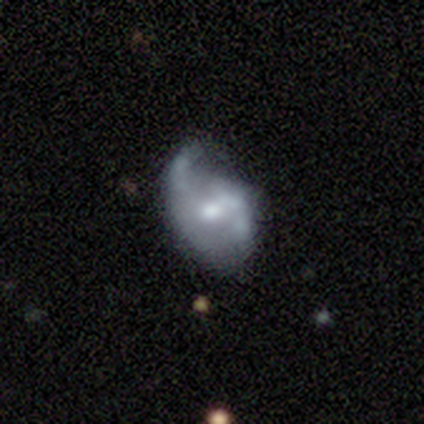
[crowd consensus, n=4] Overall: smooth (50%, tied with featured or disk). How rounded: in between (100%). Merging: minor disturbance (50%; none 25%).